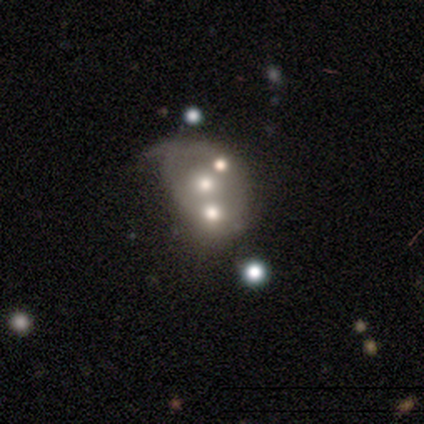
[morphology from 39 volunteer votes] A featured or disk galaxy (77%) with no bar (87%), no spiral arms (70%) and a moderate central bulge (70%). Merging: minor disturbance (37%).